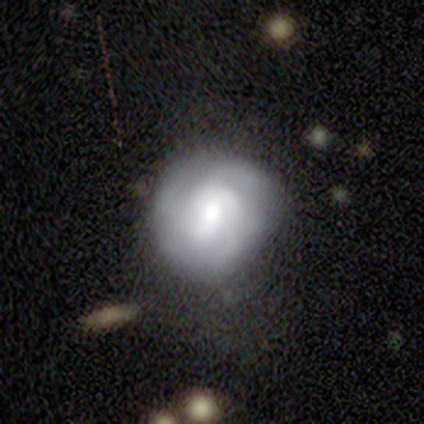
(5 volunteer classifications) Overall: smooth (40%, tied with featured or disk). How rounded: round (50%, tied with in between). Merging: none (75%).